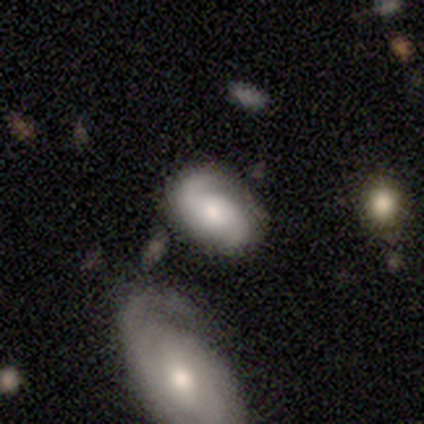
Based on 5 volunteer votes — This appears to be a featured or disk galaxy (100%) with no bar (80%), 2 (80%) medium (60%) spiral arms (100%) and a moderate central bulge (80%). Merging: none (100%).